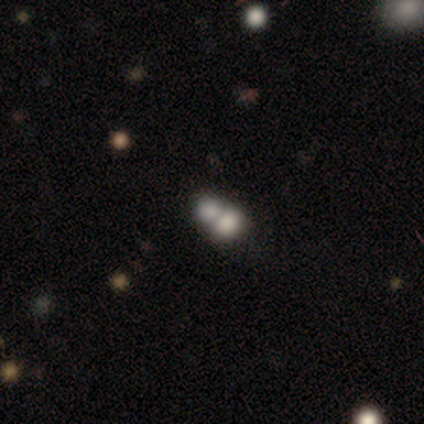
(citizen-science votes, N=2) Morphology: type=featured or disk (100%); edge-on=no (100%); bar=no (100%); spiral arms=no (100%); bulge=dominant (50%, tied with none); merging=none (50%, tied with merger).